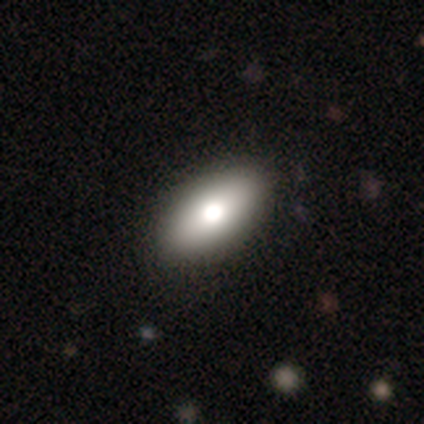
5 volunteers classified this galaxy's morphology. smooth_or_featured: smooth (p=0.60) [alt: featured or disk p=0.20]
how_rounded: in between (p=0.67) [alt: round p=0.33]
merging: none (p=1.00)